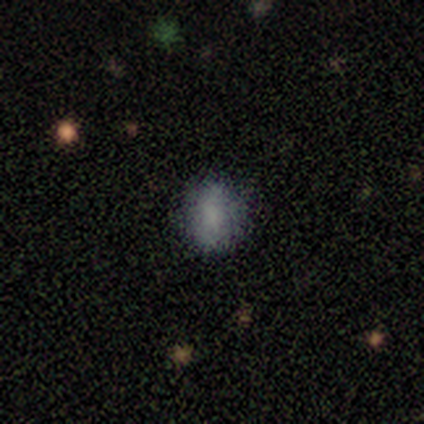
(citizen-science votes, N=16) Morphology: type=smooth (94%); roundness=round (53%); merging=none (87%).